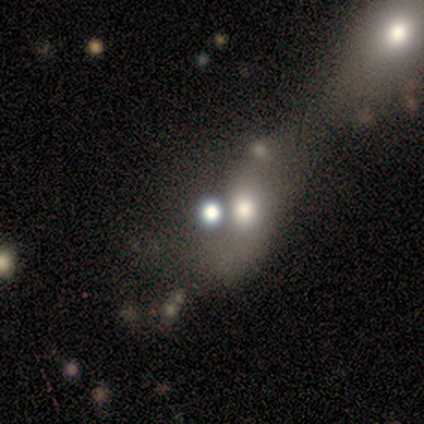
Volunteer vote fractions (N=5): A featured or disk galaxy (40%, tied with star or artifact) with no bar (100%), 2 (100%) loose (100%) spiral arms (50%, tied with no) and a dominant central bulge (50%, tied with moderate). Merging: none (33%, tied with major disturbance and merger).